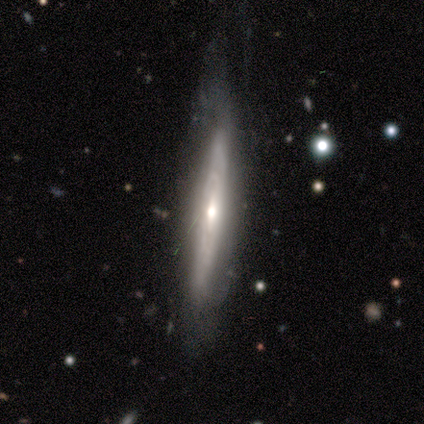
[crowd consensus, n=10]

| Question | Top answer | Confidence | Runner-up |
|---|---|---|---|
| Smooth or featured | featured or disk | 60% | smooth (30%) |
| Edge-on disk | yes | 83% | no (17%) |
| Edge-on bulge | rounded | 100% | — |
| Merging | none | 78% | minor disturbance (22%) |